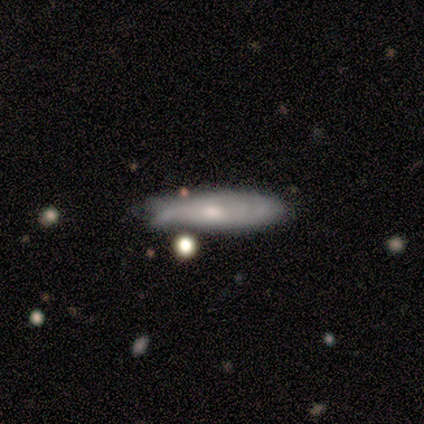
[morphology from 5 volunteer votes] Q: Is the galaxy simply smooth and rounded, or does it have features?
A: featured or disk — 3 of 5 (60%).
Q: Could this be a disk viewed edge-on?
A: yes — 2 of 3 (67%).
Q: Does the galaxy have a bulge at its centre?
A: rounded — 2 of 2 (100%).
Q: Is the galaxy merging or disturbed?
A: none — 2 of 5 (40%, tied with major disturbance).